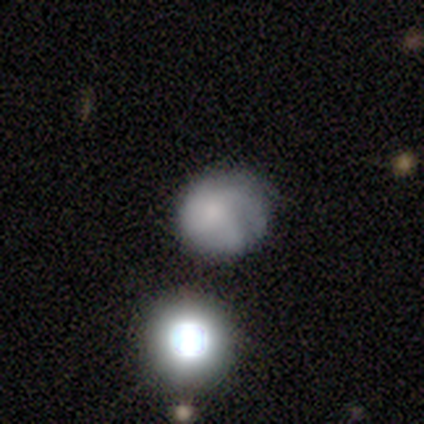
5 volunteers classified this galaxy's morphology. A smooth galaxy with no disk features (60%) that is round (100%).

Vote fractions:
- Smooth or featured? smooth: 60% / featured or disk: 20% / star or artifact: 20%
- How rounded? round: 100% / in between: 0% / cigar-shaped: 0%
- Merging? none: 75% / minor disturbance: 25% / major disturbance: 0% / merger: 0%